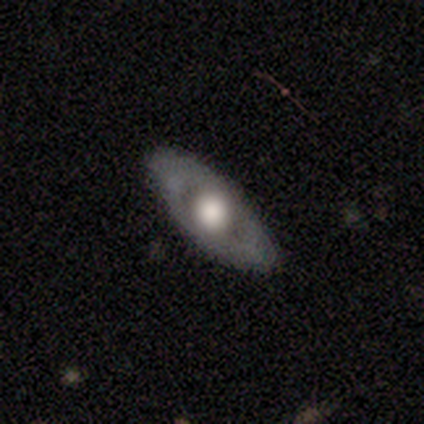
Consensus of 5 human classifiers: featured or disk 80%, star or artifact 20%, smooth 0%. Down the decision tree: edge-on disk — no (100%); bar — no (100%); spiral arms — no (75%); bulge size — large (100%); merging — none (100%).